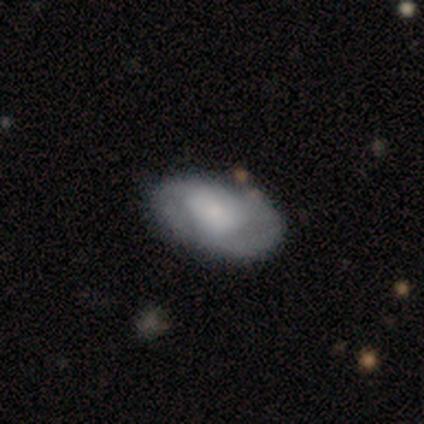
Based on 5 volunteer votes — smooth-or-featured: smooth: 60% | featured or disk: 40% | star or artifact: 0%
  how-rounded: in between: 100% | round: 0% | cigar-shaped: 0%
  merging: none: 60% | minor disturbance: 40% | major disturbance: 0% | merger: 0%